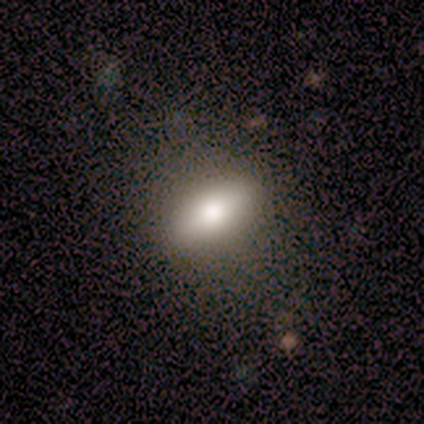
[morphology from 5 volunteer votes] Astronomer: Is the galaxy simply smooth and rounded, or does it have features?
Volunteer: smooth — 60% (runner-up: featured or disk, 40%).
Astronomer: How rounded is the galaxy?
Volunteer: in between — 67%.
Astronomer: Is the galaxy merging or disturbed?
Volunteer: none — 100%.